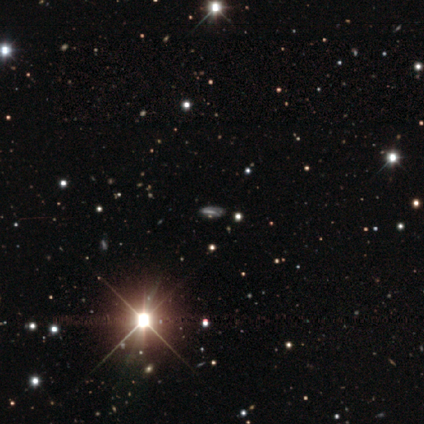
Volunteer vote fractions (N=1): This is clearly a star or artifact rather than a galaxy (100%).